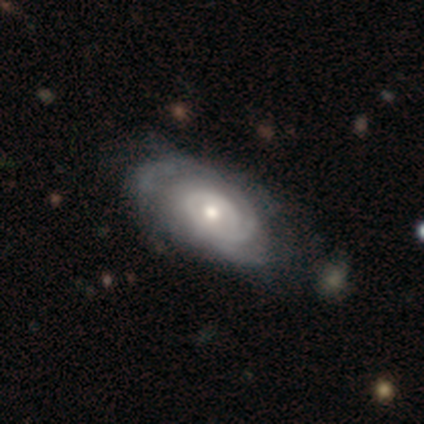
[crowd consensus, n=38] Q: Smooth or featured?
A: featured or disk (92%); runner-up: smooth (8%)
Q: Edge-on disk?
A: no (100%)
Q: Bar?
A: no (74%); runner-up: weak (17%)
Q: Spiral arms?
A: yes (97%); runner-up: no (3%)
Q: Spiral winding?
A: tight (74%); runner-up: medium (26%)
Q: Spiral arm count?
A: 2 (38%); runner-up: can't tell (35%)
Q: Bulge size?
A: moderate (71%); runner-up: small (23%)
Q: Merging?
A: none (34%); runner-up: minor disturbance (24%)